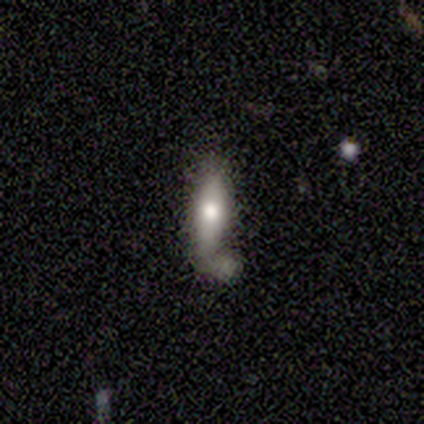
This appears to be a smooth galaxy with no disk features (80%) that is in between round and cigar-shaped (50%, tied with cigar-shaped). Merging: merger (60%).